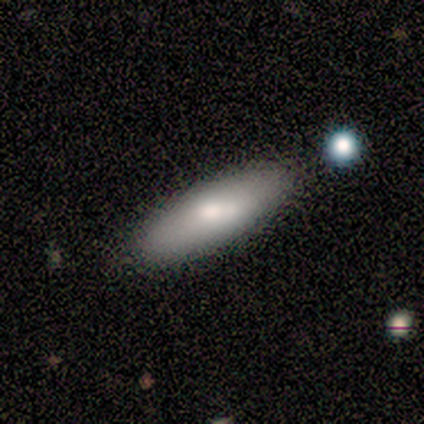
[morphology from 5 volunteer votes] A smooth galaxy with no disk features (80%) that is cigar-shaped (75%). Merging: none (80%).